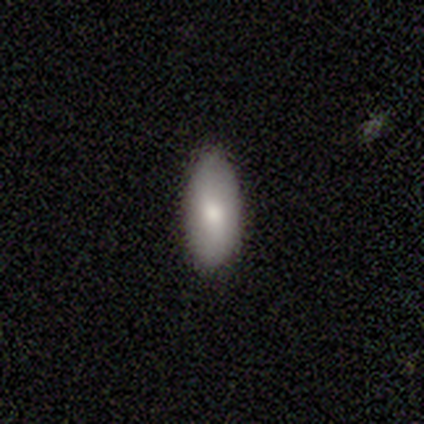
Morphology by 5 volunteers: smooth 100%, featured or disk 0%, star or artifact 0%. Down the decision tree: how rounded — in between (100%); merging — none (60%).